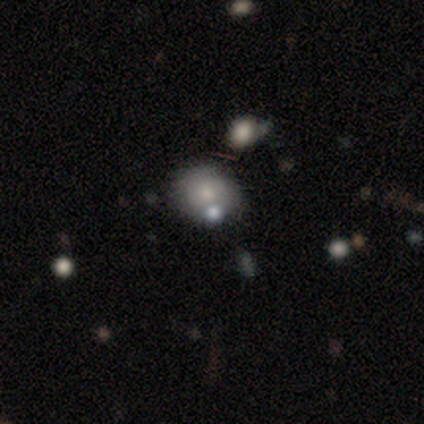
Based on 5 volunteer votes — Smooth or featured?
  - smooth: 40% * (tied)
  - featured or disk: 40% * (tied)
  - star or artifact: 20%
How rounded?
  - round: 100% *
  - in between: 0%
  - cigar-shaped: 0%
Merging?
  - none: 75% *
  - minor disturbance: 25%
  - major disturbance: 0%
  - merger: 0%